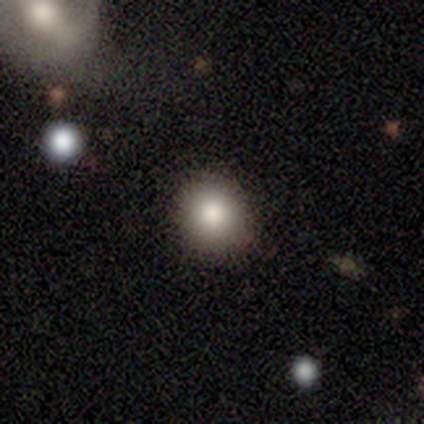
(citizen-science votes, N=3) This is clearly a smooth galaxy (100%). How rounded: clearly round (100%). Merging: likely none (67%).